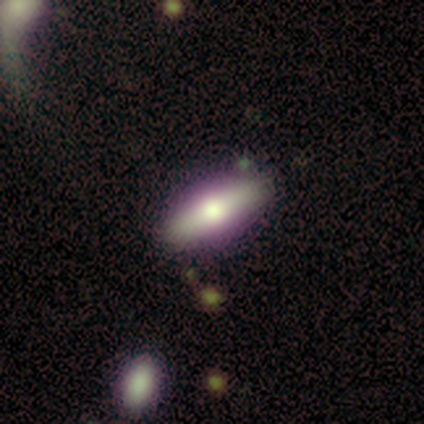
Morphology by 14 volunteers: Smooth or featured?
  - featured or disk: 57% *
  - smooth: 36%
  - star or artifact: 7%
Edge-on disk?
  - yes: 88% *
  - no: 12%
Edge-on bulge?
  - rounded: 71% *
  - boxy: 14%
  - none: 14%
Merging?
  - none: 69% *
  - minor disturbance: 23%
  - major disturbance: 8%
  - merger: 0%